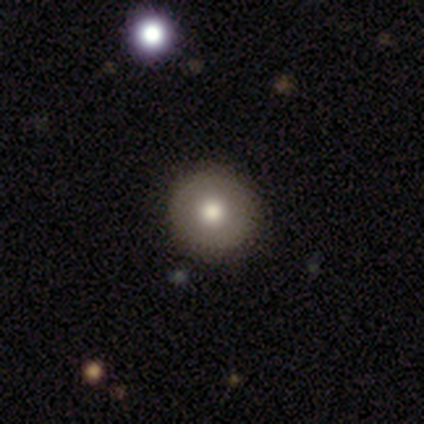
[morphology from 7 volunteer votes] smooth-or-featured: smooth: 100% | featured or disk: 0% | star or artifact: 0%
  how-rounded: round: 86% | in between: 14% | cigar-shaped: 0%
  merging: none: 71% | minor disturbance: 14% | major disturbance: 14% | merger: 0%